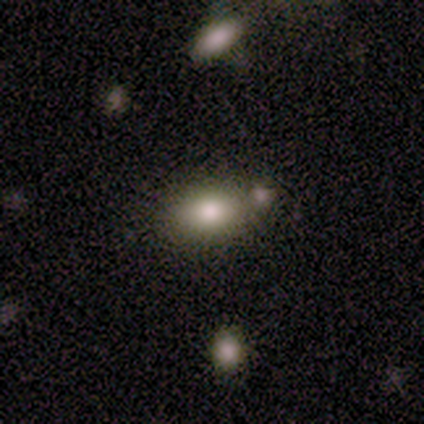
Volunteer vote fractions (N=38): smooth 87%, featured or disk 8%, star or artifact 5%. Down the decision tree: how rounded — in between (85%); merging — none (58%).